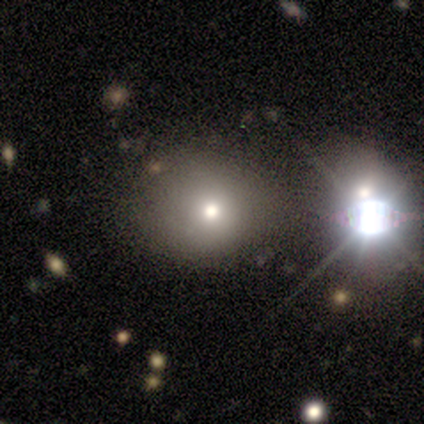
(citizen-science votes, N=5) A smooth galaxy with no disk features (60%) that is round (67%). Merging: none (50%).